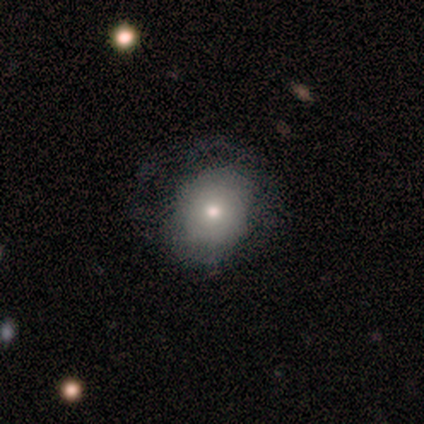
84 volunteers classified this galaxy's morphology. This appears to be a smooth galaxy with no disk features (74%) that is round (61%). Merging: none (68%).